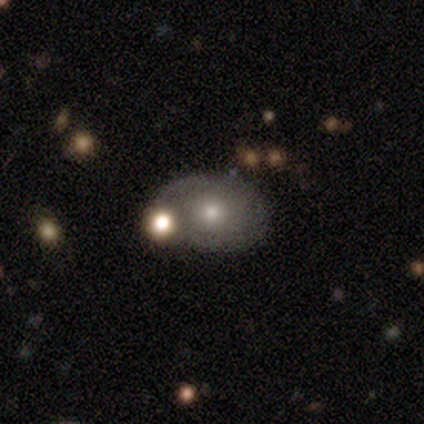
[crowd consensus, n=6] This appears to be a smooth galaxy with no disk features (50%) that is in between round and cigar-shaped (67%). Merging: merger (75%).